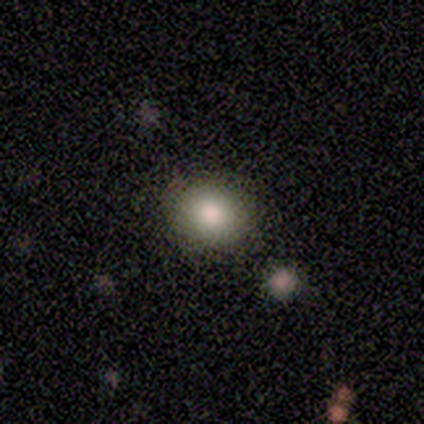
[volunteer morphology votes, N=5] Smooth or featured? 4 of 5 (80%) said smooth. How rounded? 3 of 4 (75%) said round. Merging? 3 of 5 (60%) said none.